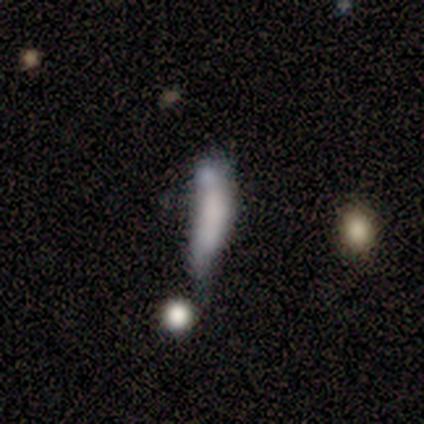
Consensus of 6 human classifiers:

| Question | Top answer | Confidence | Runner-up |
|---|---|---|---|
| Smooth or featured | smooth | 50% | tied: featured or disk (50%) |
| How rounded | cigar-shaped | 100% | — |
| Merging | minor disturbance | 50% | major disturbance (33%) |